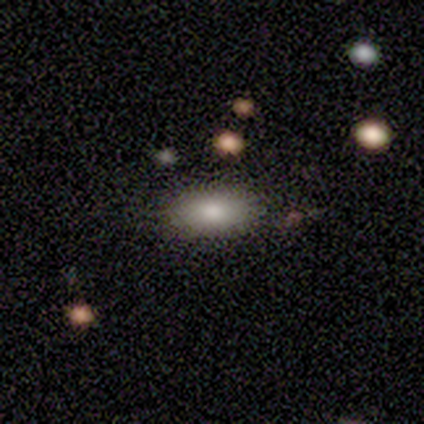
Overall: smooth (71%). How rounded: in between (85%). Merging: none (91%).